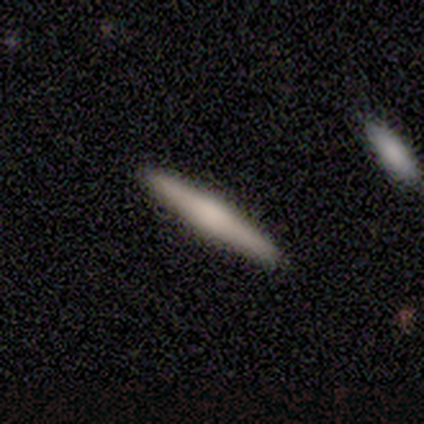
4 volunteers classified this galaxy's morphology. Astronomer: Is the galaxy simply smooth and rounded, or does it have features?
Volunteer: smooth — 100%.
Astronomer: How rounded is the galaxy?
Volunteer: cigar-shaped — 100%.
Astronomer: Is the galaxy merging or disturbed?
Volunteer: none — 100%.